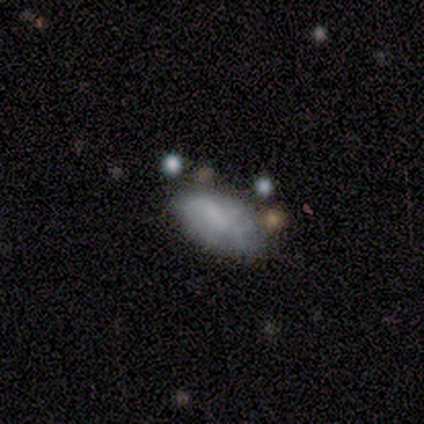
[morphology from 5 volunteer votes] Smooth or featured? smooth (60%)
How rounded? in between (100%)
Merging? none (40%, tied with minor disturbance)